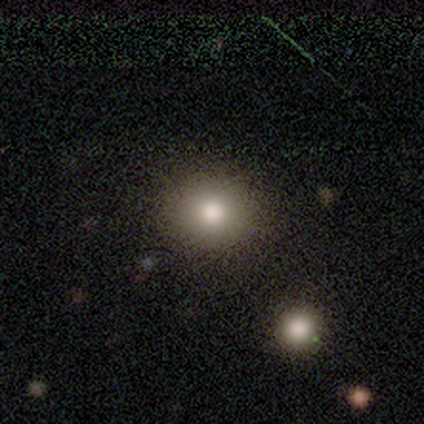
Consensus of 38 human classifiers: Smooth or featured?
  - smooth: 89% *
  - featured or disk: 5%
  - star or artifact: 5%
How rounded?
  - round: 74% *
  - in between: 24%
  - cigar-shaped: 3%
Merging?
  - none: 53% *
  - minor disturbance: 6%
  - merger: 3%
  - major disturbance: 0%